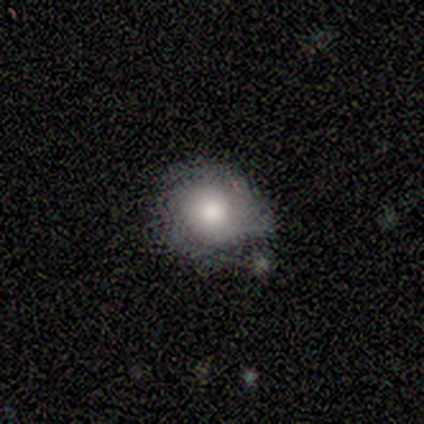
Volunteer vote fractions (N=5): smooth 60%, featured or disk 40%, star or artifact 0%. Down the decision tree: how rounded — round (100%); merging — none (60%).